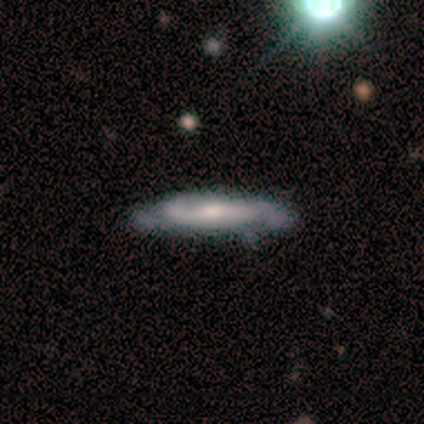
Morphology: type=featured or disk (80%); edge-on=no (100%); bar=weak (75%); spiral arms=yes (100%); winding=medium (75%); arm count=2 (75%); bulge=moderate (75%); merging=none (80%).